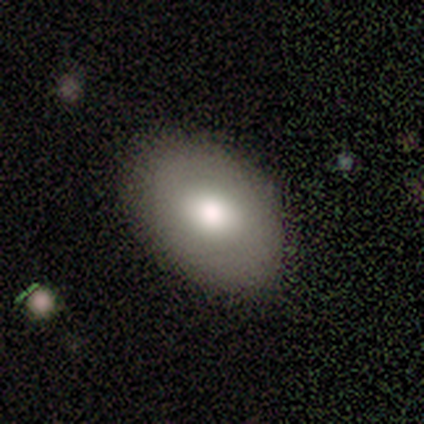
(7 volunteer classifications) Smooth or featured?
  - smooth: 86% *
  - featured or disk: 14%
  - star or artifact: 0%
How rounded?
  - in between: 67% *
  - round: 33%
  - cigar-shaped: 0%
Merging?
  - none: 57% *
  - minor disturbance: 43%
  - major disturbance: 0%
  - merger: 0%